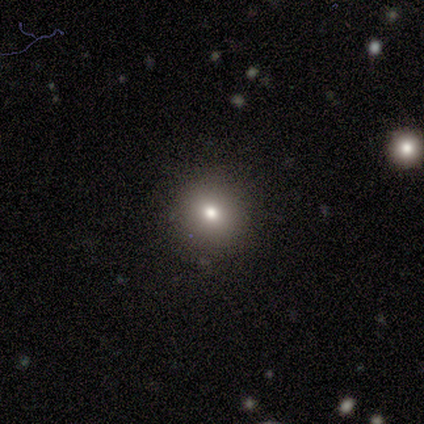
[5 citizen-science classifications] Smooth or featured: smooth — 80% (star or artifact — 20%)
How rounded: round — 100%
Merging: none — 100%